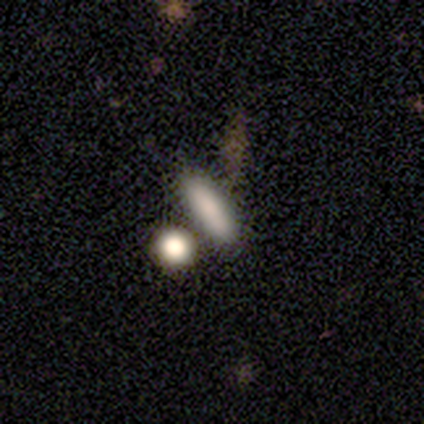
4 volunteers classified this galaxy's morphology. smooth_or_featured: smooth (p=1.00)
how_rounded: in between (p=0.50) [tied with: cigar-shaped p=0.50]
merging: none (p=0.75) [alt: minor disturbance p=0.25]